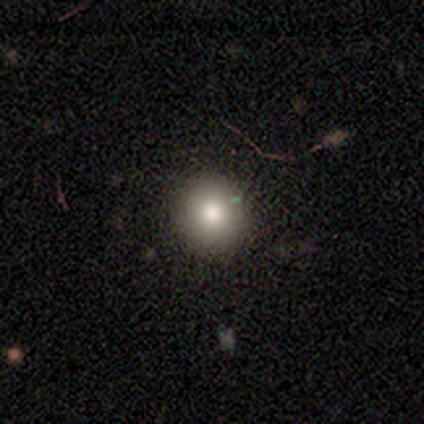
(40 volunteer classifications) Overall: smooth (80%). How rounded: round (91%). Merging: none (94%).